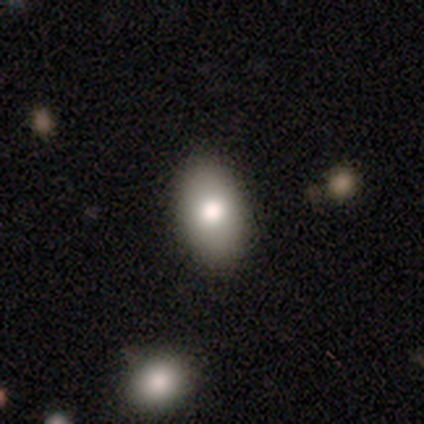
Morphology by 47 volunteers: This is clearly a smooth galaxy (83%). How rounded: clearly in between (95%). Merging: clearly none (93%).